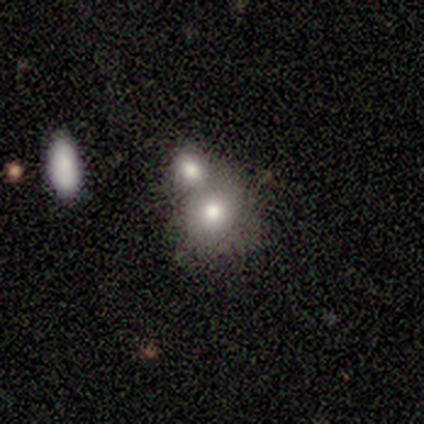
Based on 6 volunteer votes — Morphology: type=smooth (67%); roundness=round (100%); merging=merger (80%).